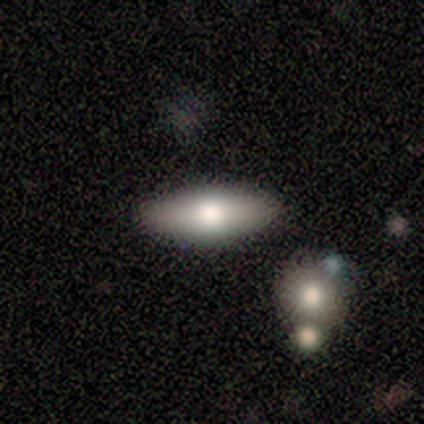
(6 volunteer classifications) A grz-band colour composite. It shows a smooth galaxy with no disk features (83%) that is in between round and cigar-shaped (100%). Merging: none (100%).